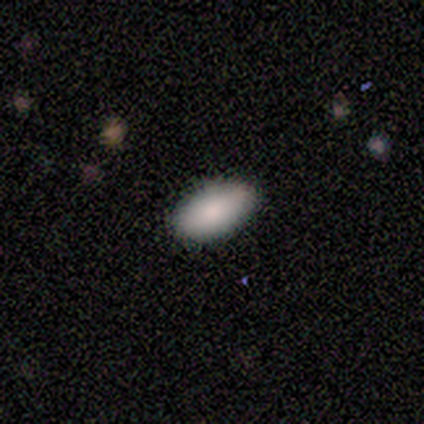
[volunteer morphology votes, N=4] smooth-or-featured: smooth: 75% | featured or disk: 25% | star or artifact: 0%
  how-rounded: in between: 100% | round: 0% | cigar-shaped: 0%
  merging: none: 75% | minor disturbance: 25% | major disturbance: 0% | merger: 0%